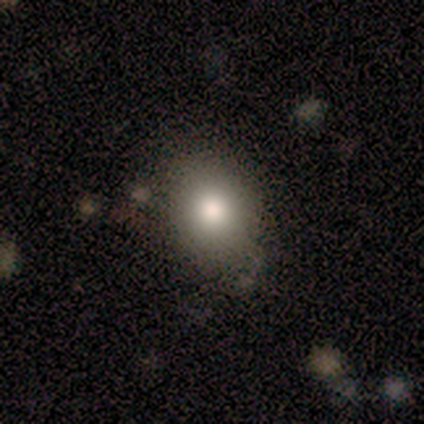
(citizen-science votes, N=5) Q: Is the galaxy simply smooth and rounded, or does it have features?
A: smooth — 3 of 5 (60%).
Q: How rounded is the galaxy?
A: in between — 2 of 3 (67%).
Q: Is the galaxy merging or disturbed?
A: none — 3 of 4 (75%).